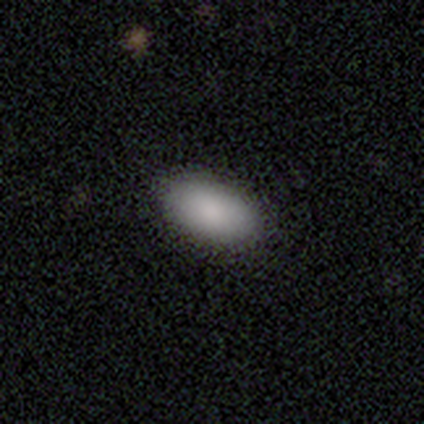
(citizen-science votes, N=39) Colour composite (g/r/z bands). It shows a smooth galaxy with no disk features (92%) that is in between round and cigar-shaped (92%). Merging: none (55%).